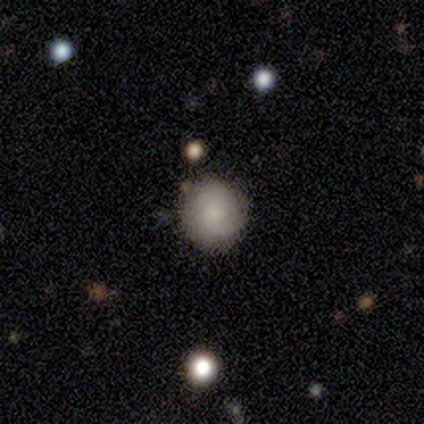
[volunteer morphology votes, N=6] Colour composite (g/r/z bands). It shows a smooth galaxy with no disk features (50%, tied with featured or disk) that is round (100%). Merging: none (100%).